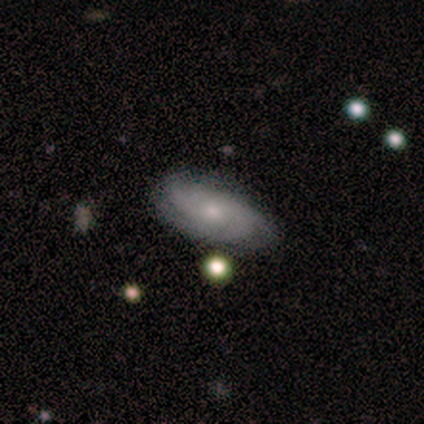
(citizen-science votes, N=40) Overall: featured or disk (60%; smooth 32%). Edge-on disk: no (92%). Bar: no (91%). Spiral arms: yes (86%). Spiral arm count: can't tell (47%; 2 32%). Spiral winding: tight (79%). Bulge size: small (73%). Merging: none (78%).